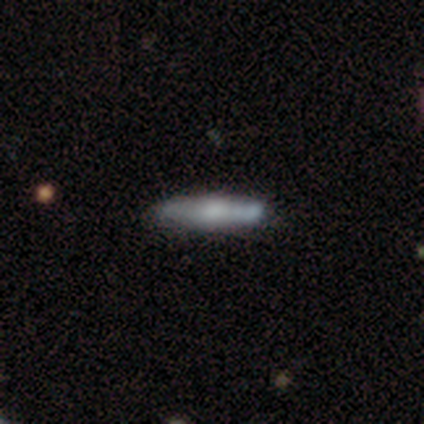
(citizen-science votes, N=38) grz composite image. It shows a smooth galaxy with no disk features (47%, tied with featured or disk) that is cigar-shaped (94%). Merging: none (69%).